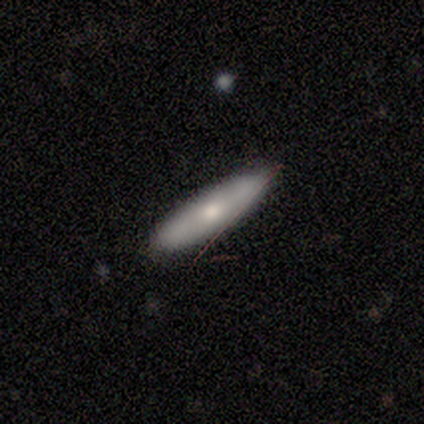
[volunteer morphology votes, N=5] Overall: featured or disk (60%; smooth 40%). Edge-on disk: yes (100%). Edge-on bulge: none (67%; rounded 33%). Merging: none (80%).